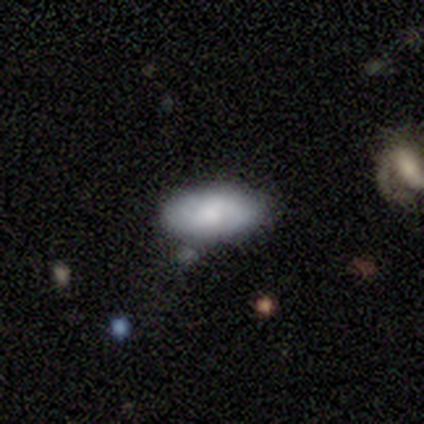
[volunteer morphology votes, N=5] This is clearly a smooth galaxy (80%). How rounded: clearly in between (100%). Merging: likely minor disturbance (60%).